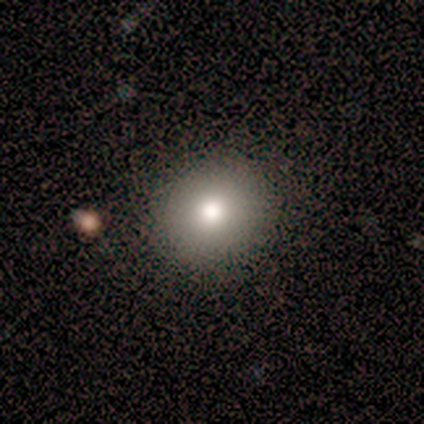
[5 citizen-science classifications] smooth-or-featured: smooth: 100% | featured or disk: 0% | star or artifact: 0%
  how-rounded: round: 100% | in between: 0% | cigar-shaped: 0%
  merging: none: 100% | minor disturbance: 0% | major disturbance: 0% | merger: 0%